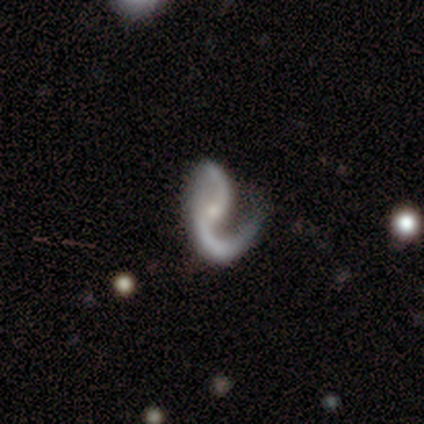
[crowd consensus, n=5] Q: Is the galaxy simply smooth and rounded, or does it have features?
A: featured or disk — 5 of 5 (100%).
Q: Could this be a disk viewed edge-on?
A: no — 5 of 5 (100%).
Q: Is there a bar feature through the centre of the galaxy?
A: no — 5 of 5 (100%).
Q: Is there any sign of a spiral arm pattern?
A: yes — 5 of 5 (100%).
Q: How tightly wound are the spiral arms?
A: medium — 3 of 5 (60%).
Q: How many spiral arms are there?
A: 2 — 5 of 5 (100%).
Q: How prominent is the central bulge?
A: small — 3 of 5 (60%).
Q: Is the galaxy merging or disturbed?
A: minor disturbance — 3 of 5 (60%).